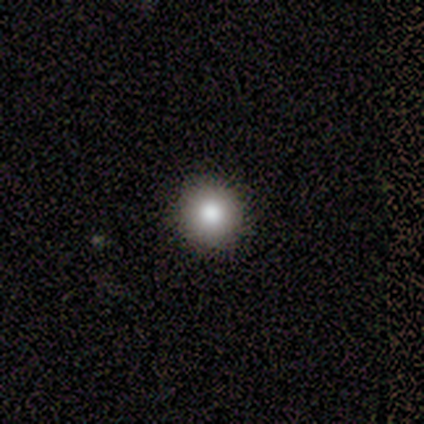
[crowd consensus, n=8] A smooth galaxy with no disk features (88%) that is round (100%).

Vote fractions:
- Smooth or featured? smooth: 88% / featured or disk: 12% / star or artifact: 0%
- How rounded? round: 100% / in between: 0% / cigar-shaped: 0%
- Merging? none: 100% / minor disturbance: 0% / major disturbance: 0% / merger: 0%